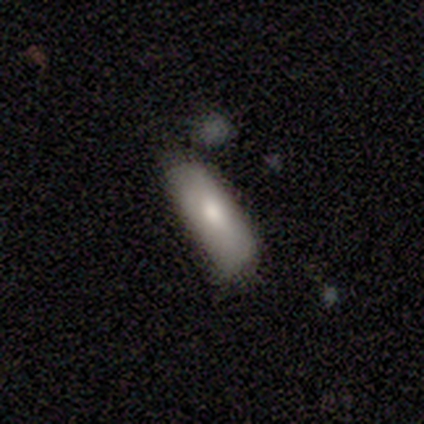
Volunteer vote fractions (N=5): smooth-or-featured: smooth: 100% | featured or disk: 0% | star or artifact: 0%
  how-rounded: cigar-shaped: 80% | in between: 20% | round: 0%
  merging: none: 80% | merger: 20% | minor disturbance: 0% | major disturbance: 0%